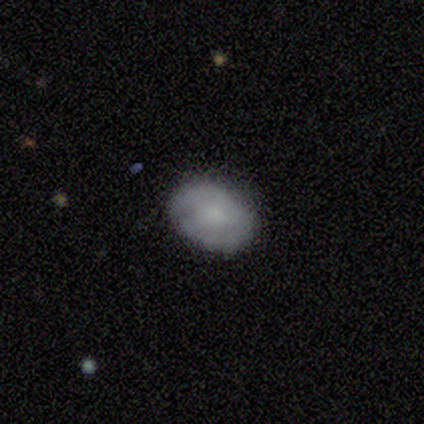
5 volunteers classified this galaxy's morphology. smooth-or-featured: smooth: 60% | featured or disk: 40% | star or artifact: 0%
  how-rounded: in between: 100% | round: 0% | cigar-shaped: 0%
  merging: none: 80% | minor disturbance: 20% | major disturbance: 0% | merger: 0%